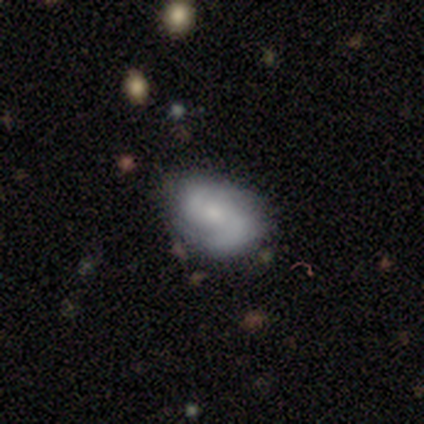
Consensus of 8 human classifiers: smooth-or-featured: featured or disk: 75% | smooth: 25% | star or artifact: 0%
  disk-edge-on: no: 100% | yes: 0%
    bar: weak: 50% | no: 33% | strong: 17%
    has-spiral-arms: yes: 83% | no: 17%
      spiral-winding: medium: 40% (tied) | loose: 40% (tied) | tight: 20%
      spiral-arm-count: 2: 100% | 1: 0% | 3: 0% | 4: 0% | more than 4: 0% | can't tell: 0%
    bulge-size: small: 83% | none: 17% | dominant: 0% | large: 0% | moderate: 0%
  merging: none: 88% | major disturbance: 12% | minor disturbance: 0% | merger: 0%